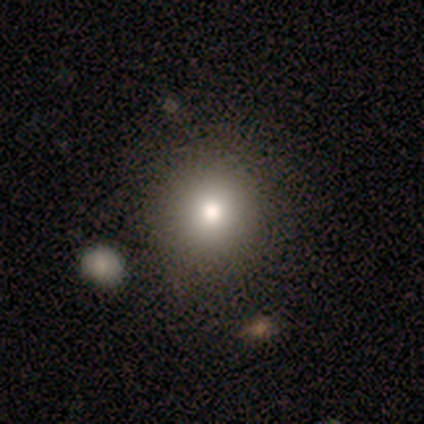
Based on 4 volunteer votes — This appears to be a smooth galaxy with no disk features (75%) that is round (100%). Merging: none (75%).